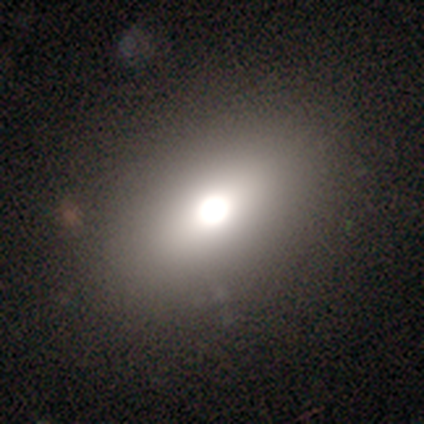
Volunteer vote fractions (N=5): Q: Smooth or featured?
A: smooth (60%); runner-up: featured or disk (40%)
Q: How rounded?
A: in between (100%)
Q: Merging?
A: none (80%); runner-up: major disturbance (20%)